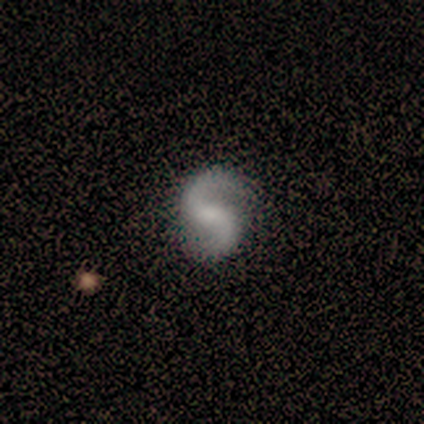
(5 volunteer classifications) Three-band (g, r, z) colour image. It shows a featured or disk galaxy (100%) with no bar (60%), 2 (80%) loose (60%) spiral arms (100%) and a small central bulge (60%). Merging: none (80%).